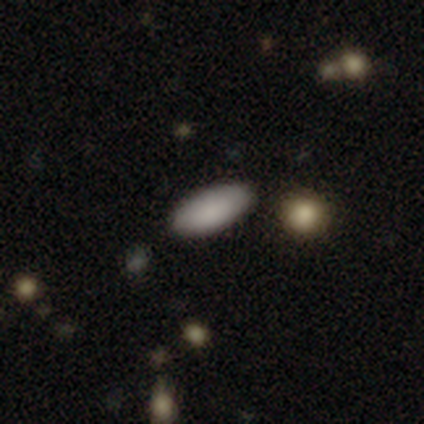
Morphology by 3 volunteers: This appears to be a smooth galaxy with no disk features (100%) that is in between round and cigar-shaped (100%). Merging: none (100%).